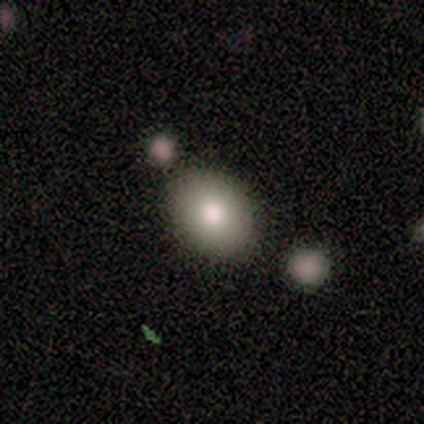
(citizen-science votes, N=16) smooth 62%, featured or disk 25%, star or artifact 12%. Down the decision tree: how rounded — in between (60%); merging — none (79%).